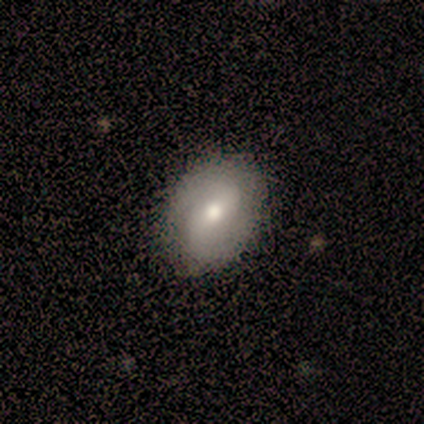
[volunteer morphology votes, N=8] Smooth or featured? featured or disk (62%)
Edge-on disk? no (100%)
Bar? weak (40%, tied with no)
Spiral arms? yes (80%)
Spiral winding? medium (75%)
Spiral arm count? 2 (75%)
Bulge size? moderate (80%)
Merging? none (100%)